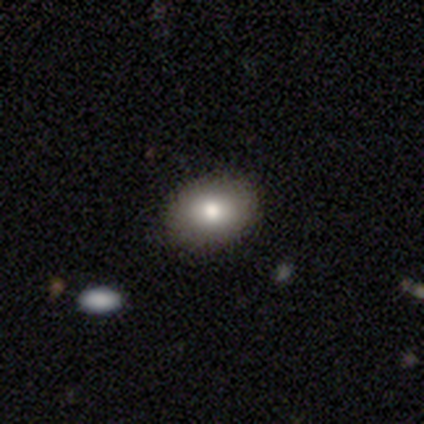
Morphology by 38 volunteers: Volunteers were most divided on "smooth or featured": smooth: 76%, star or artifact: 13%, featured or disk: 11%. More confident: merging — none (85%); how rounded — in between (83%).